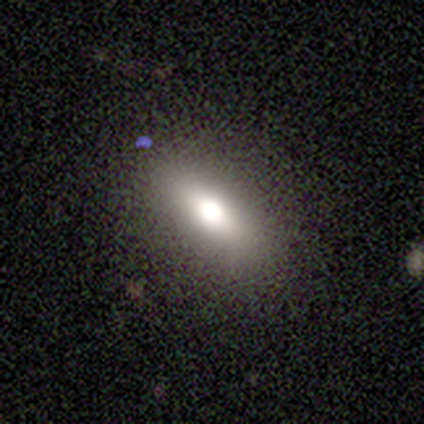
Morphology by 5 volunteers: Q: Smooth or featured?
A: smooth (80%); runner-up: star or artifact (20%)
Q: How rounded?
A: in between (50%); runner-up: round (25%)
Q: Merging?
A: none (100%)